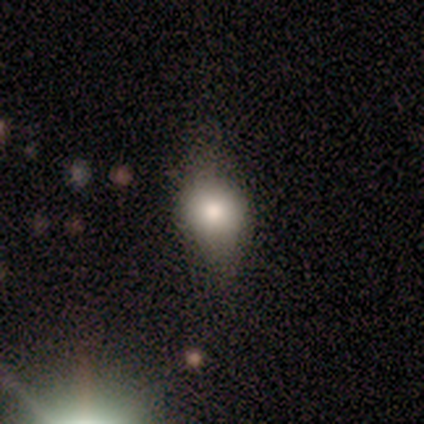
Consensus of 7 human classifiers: Morphology: type=smooth (71%); roundness=in between (100%); merging=none (57%).